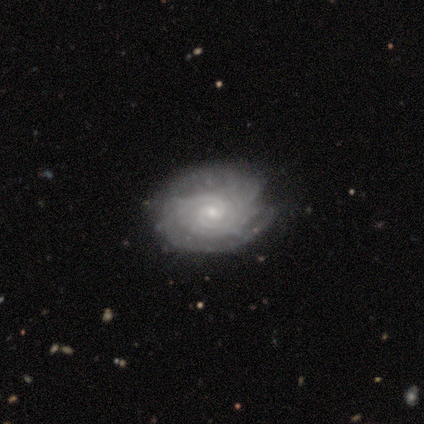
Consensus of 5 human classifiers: featured or disk 60%, smooth 20%, star or artifact 20%. Down the decision tree: edge-on disk — no (100%); bar — weak (67%); spiral arms — yes (100%); spiral arm count — can't tell (67%); spiral winding — tight (67%); bulge size — small (67%); merging — none (50%, tied with minor disturbance).